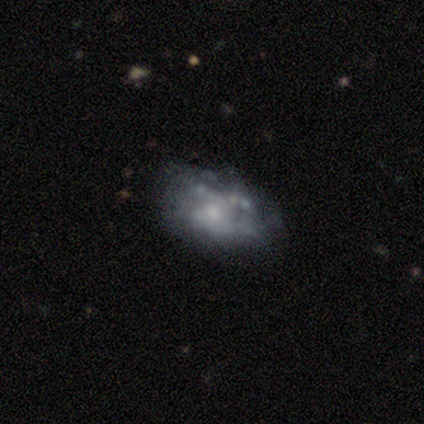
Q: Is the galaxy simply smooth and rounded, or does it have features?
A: featured or disk — 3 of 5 (60%).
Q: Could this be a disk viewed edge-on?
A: no — 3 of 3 (100%).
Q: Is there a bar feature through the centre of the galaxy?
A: no — 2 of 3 (67%).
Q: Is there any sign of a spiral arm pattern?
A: no — 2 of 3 (67%).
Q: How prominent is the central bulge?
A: small — 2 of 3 (67%).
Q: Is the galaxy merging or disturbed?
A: none — 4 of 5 (80%).